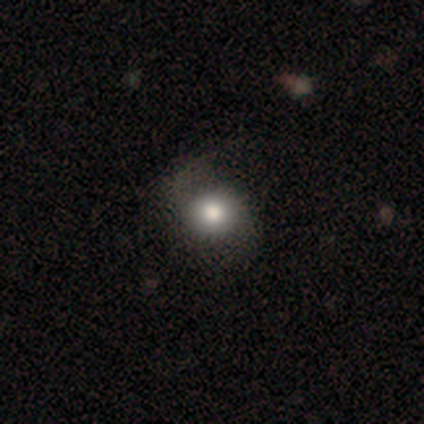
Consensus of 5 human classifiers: Q: Smooth or featured?
A: smooth (80%); runner-up: featured or disk (20%)
Q: How rounded?
A: in between (75%); runner-up: round (25%)
Q: Merging?
A: none (40%); tied with: minor disturbance (40%)